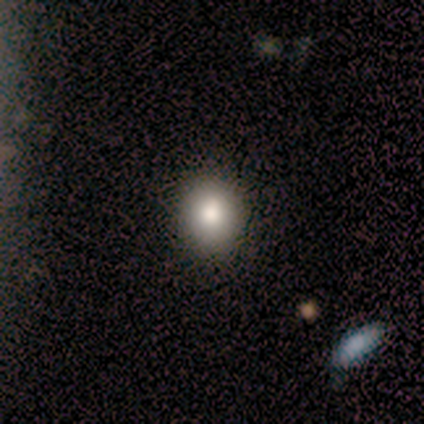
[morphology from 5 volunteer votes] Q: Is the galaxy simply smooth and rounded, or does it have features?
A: smooth — 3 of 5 (60%).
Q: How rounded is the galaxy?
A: in between — 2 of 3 (67%).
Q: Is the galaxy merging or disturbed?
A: none — 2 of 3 (67%).